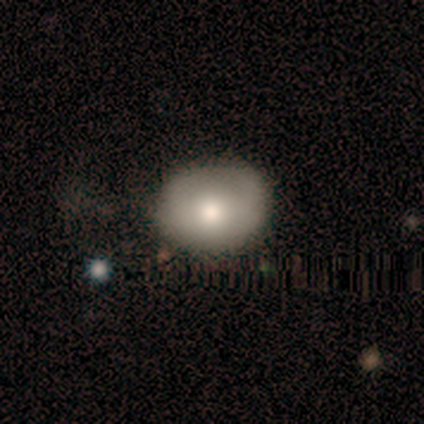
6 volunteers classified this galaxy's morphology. This appears to be a smooth galaxy with no disk features (67%) that is in between round and cigar-shaped (75%). Merging: none (67%).